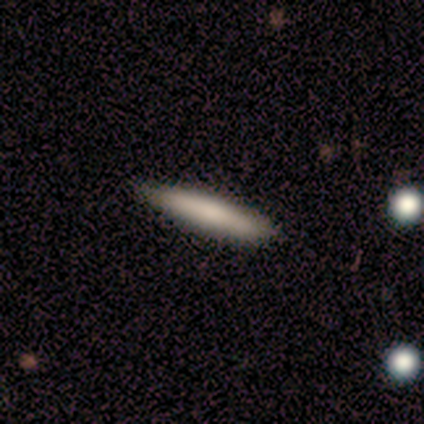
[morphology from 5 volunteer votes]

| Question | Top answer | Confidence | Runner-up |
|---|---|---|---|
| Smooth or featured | smooth | 100% | — |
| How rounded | cigar-shaped | 100% | — |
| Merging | none | 100% | — |